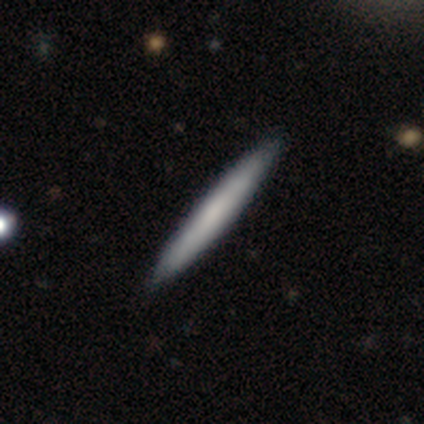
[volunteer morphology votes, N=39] A smooth galaxy with no disk features (69%) that is cigar-shaped (89%).

Vote fractions:
- Smooth or featured? smooth: 69% / featured or disk: 31% / star or artifact: 0%
- How rounded? cigar-shaped: 89% / in between: 7% / round: 4%
- Merging? none: 77% / major disturbance: 3% / merger: 3% / minor disturbance: 0%